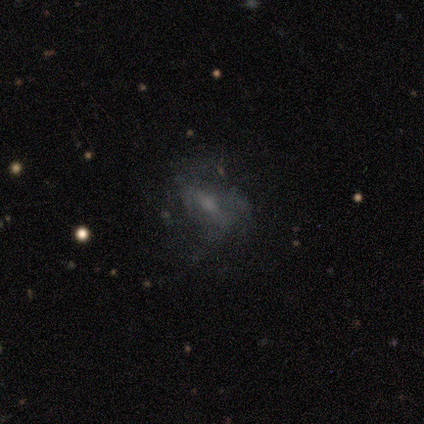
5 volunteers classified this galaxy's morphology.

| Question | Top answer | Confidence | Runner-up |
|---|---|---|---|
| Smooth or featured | featured or disk | 100% | — |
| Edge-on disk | no | 100% | — |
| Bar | weak | 60% | no (40%) |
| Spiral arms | no | 60% | yes (40%) |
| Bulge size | small | 40% | tied: none (40%) |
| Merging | none | 40% | tied: major disturbance (40%) |